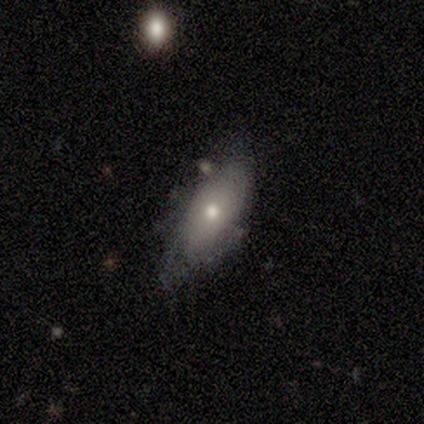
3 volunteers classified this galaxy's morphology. A smooth galaxy with no disk features (67%) that is in between round and cigar-shaped (100%).

Vote fractions:
- Smooth or featured? smooth: 67% / featured or disk: 33% / star or artifact: 0%
- How rounded? in between: 100% / round: 0% / cigar-shaped: 0%
- Merging? none: 67% / minor disturbance: 33% / major disturbance: 0% / merger: 0%